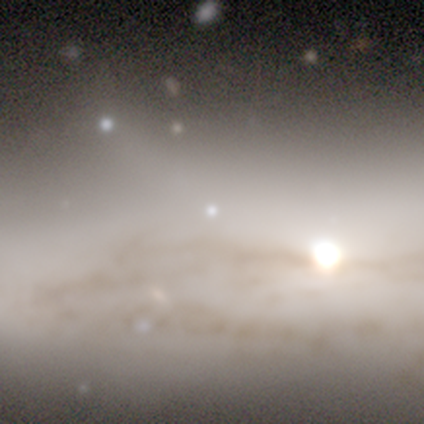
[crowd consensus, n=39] Overall: star or artifact (67%).